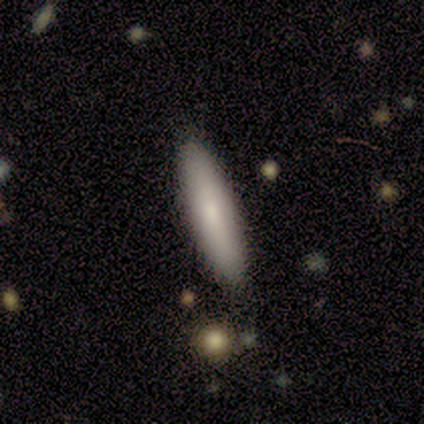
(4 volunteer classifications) smooth 75%, star or artifact 25%, featured or disk 0%. Down the decision tree: how rounded — cigar-shaped (67%); merging — none (100%).